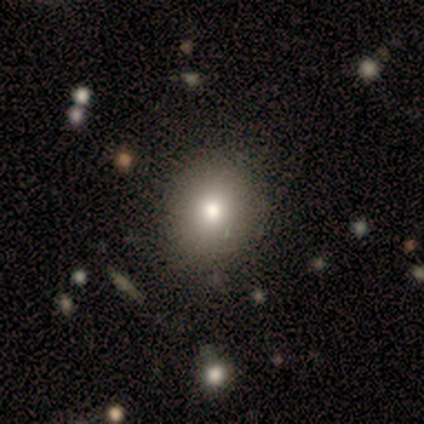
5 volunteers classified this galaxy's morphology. Volunteers were most divided on "how rounded": round: 75%, in between: 25%, cigar-shaped: 0%. More confident: merging — none (100%); smooth or featured — smooth (80%).